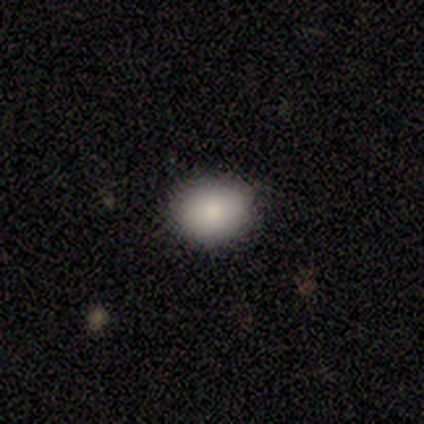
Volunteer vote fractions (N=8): Smooth or featured: smooth — 75% (featured or disk — 25%)
How rounded: round — 67% (in between — 33%)
Merging: none — 88% (minor disturbance — 12%)